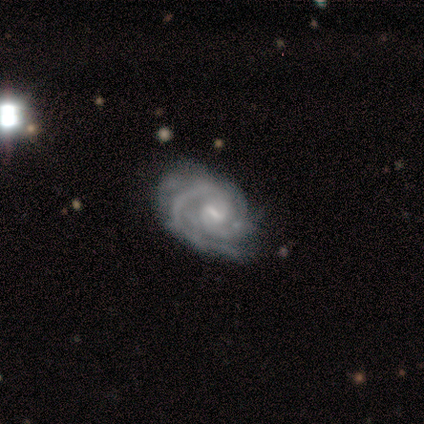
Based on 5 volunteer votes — Volunteers were most divided on "merging" (2-way tie): none: 40%, major disturbance: 40%, minor disturbance: 20%, merger: 0%. More confident: smooth or featured — featured or disk (100%); edge-on disk — no (100%); bar — weak (100%); spiral arms — yes (100%); spiral winding — medium (60%); spiral arm count — 2 (60%); bulge size — small (60%).